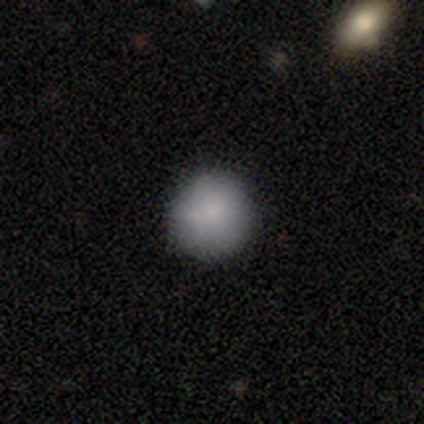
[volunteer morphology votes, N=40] A smooth galaxy with no disk features (90%) that is round (94%). Merging: none (82%).